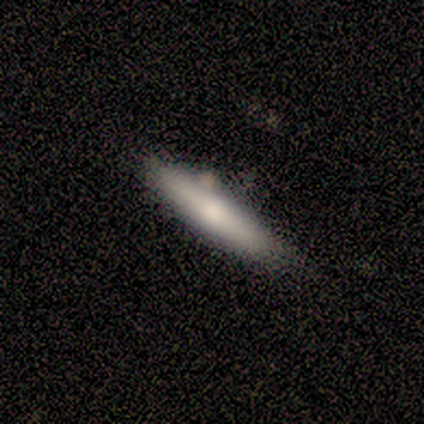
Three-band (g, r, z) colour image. It shows a featured or disk galaxy (60%) viewed edge-on (67%) with a rounded central bulge (100%). Merging: none (60%).